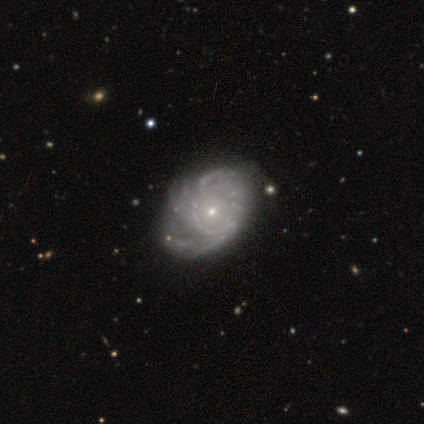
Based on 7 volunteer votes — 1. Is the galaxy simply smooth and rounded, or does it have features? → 100% featured or disk, 0% smooth, 0% star or artifact.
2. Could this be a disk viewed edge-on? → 100% no, 0% yes.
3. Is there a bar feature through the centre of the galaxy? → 71% no, 14% strong, 14% weak.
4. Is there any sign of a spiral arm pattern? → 86% yes, 14% no.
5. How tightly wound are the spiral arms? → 67% tight, 17% medium, 17% loose.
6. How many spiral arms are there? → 50% more than 4, 33% can't tell, 17% 3, 0% 1, 0% 2, 0% 4.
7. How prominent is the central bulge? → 86% small, 14% moderate, 0% dominant, 0% large, 0% none.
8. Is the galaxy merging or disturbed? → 100% none, 0% minor disturbance, 0% major disturbance, 0% merger.